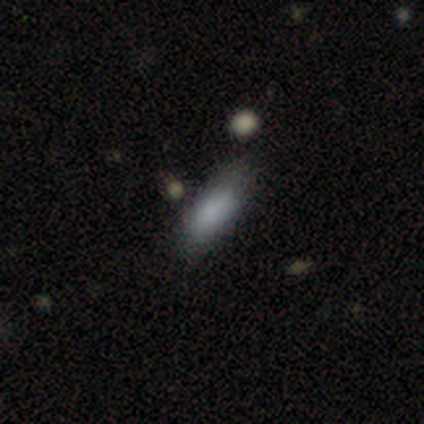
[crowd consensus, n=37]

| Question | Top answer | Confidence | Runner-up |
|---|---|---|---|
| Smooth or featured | smooth | 92% | featured or disk (5%) |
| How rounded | in between | 59% | cigar-shaped (41%) |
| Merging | none | 72% | minor disturbance (17%) |